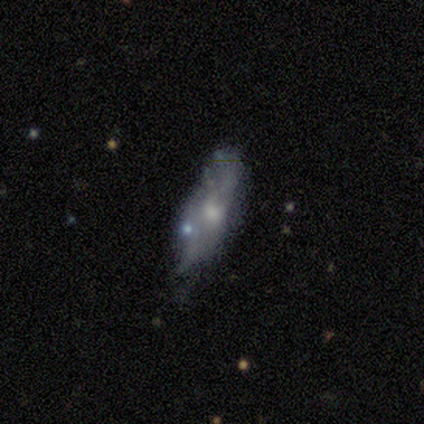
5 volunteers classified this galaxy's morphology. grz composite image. It shows a smooth galaxy with no disk features (40%, tied with star or artifact) that is in between round and cigar-shaped (50%, tied with cigar-shaped). Merging: none (100%).